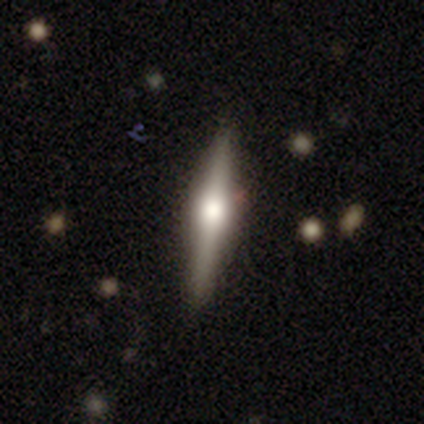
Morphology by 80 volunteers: Smooth or featured?
  - featured or disk: 59% *
  - smooth: 34%
  - star or artifact: 8%
Edge-on disk?
  - yes: 100% *
  - no: 0%
Edge-on bulge?
  - rounded: 94% *
  - boxy: 6%
  - none: 0%
Merging?
  - none: 46% *
  - minor disturbance: 5%
  - major disturbance: 1%
  - merger: 1%